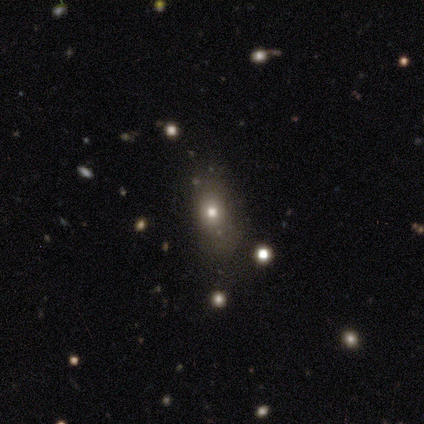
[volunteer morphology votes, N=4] smooth_or_featured: smooth (p=0.50) [alt: featured or disk p=0.25]
how_rounded: in between (p=1.00)
merging: none (p=1.00)